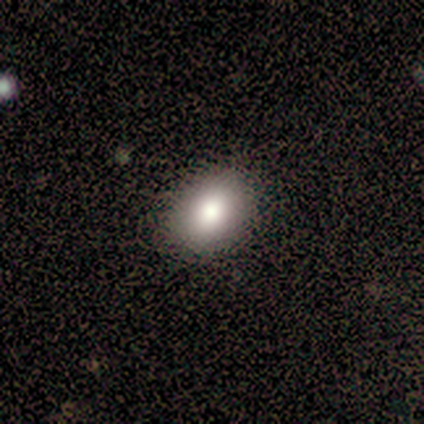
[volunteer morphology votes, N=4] Smooth or featured? smooth (75%)
How rounded? in between (100%)
Merging? none (75%)